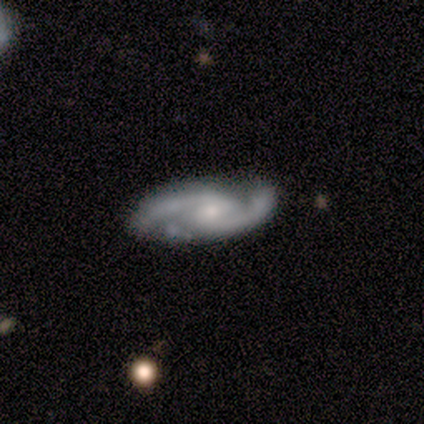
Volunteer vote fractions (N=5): Smooth or featured? 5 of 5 (100%) said featured or disk. Edge-on disk? 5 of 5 (100%) said no. Bar? 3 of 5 (60%) said weak. Spiral arms? 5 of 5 (100%) said yes. Spiral winding? 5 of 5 (100%) said medium. Spiral arm count? 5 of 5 (100%) said 2. Bulge size? 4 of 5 (80%) said moderate. Merging? 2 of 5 (40%, tied with minor disturbance) said none.